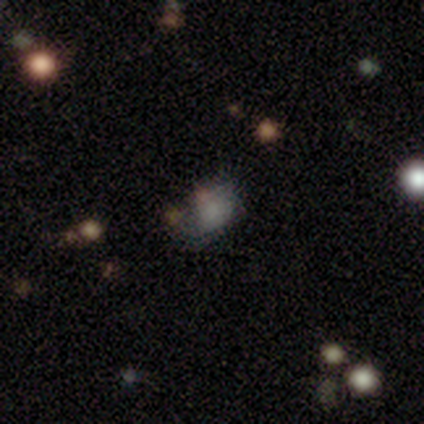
A smooth galaxy with no disk features (71%) that is in between round and cigar-shaped (74%). Merging: none (62%).